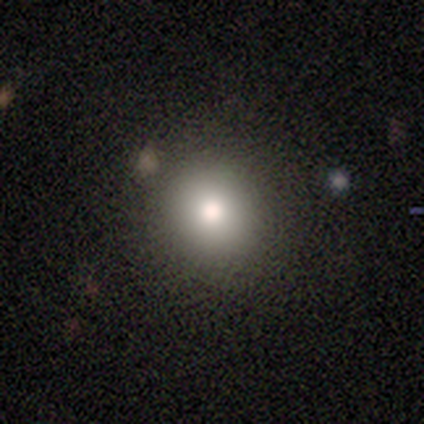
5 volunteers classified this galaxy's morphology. type=smooth (80%); roundness=round (100%); merging=none (75%).